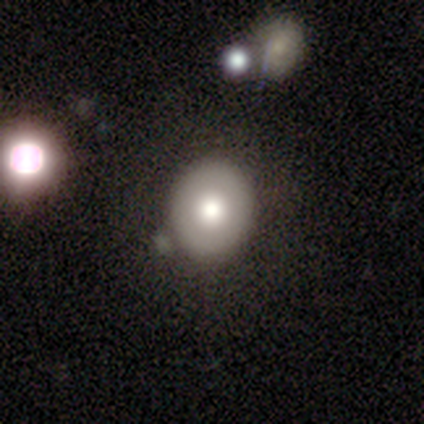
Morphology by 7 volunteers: Q: Smooth or featured?
A: smooth (57%); runner-up: featured or disk (29%)
Q: How rounded?
A: round (100%)
Q: Merging?
A: none (67%); runner-up: minor disturbance (33%)